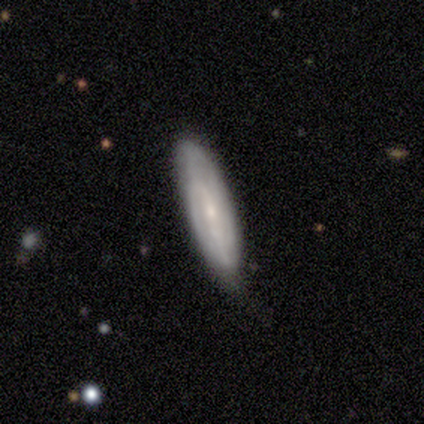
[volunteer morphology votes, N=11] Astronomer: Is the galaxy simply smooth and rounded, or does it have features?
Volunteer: featured or disk — 55% (runner-up: smooth, 45%).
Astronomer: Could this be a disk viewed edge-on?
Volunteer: no — 83%.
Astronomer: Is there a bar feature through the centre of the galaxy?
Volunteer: weak — 40%, tied with no at 40%.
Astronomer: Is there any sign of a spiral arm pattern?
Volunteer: yes — 100%.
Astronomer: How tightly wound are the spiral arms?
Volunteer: tight — 60% (runner-up: medium, 40%).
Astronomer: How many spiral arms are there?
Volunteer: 2 — 60% (runner-up: can't tell, 40%).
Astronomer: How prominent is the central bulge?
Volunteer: small — 100%.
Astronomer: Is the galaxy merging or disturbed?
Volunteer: none — 73%.